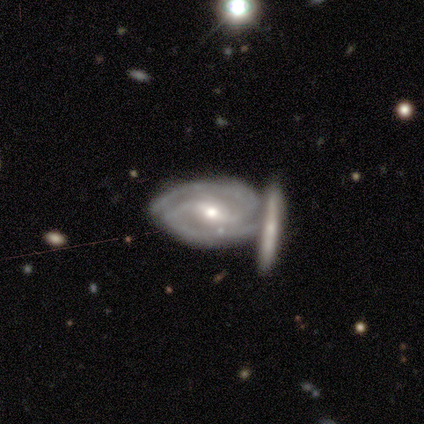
smooth-or-featured: featured or disk: 60% | smooth: 20% | star or artifact: 20%
  disk-edge-on: no: 100% | yes: 0%
    bar: strong: 33% (tied) | weak: 33% (tied) | no: 33% (tied)
    has-spiral-arms: yes: 100% | no: 0%
      spiral-winding: medium: 67% | tight: 33% | loose: 0%
      spiral-arm-count: 2: 100% | 1: 0% | 3: 0% | 4: 0% | more than 4: 0% | can't tell: 0%
    bulge-size: moderate: 67% | small: 33% | dominant: 0% | large: 0% | none: 0%
  merging: none: 50% (tied) | minor disturbance: 50% (tied) | major disturbance: 0% | merger: 0%